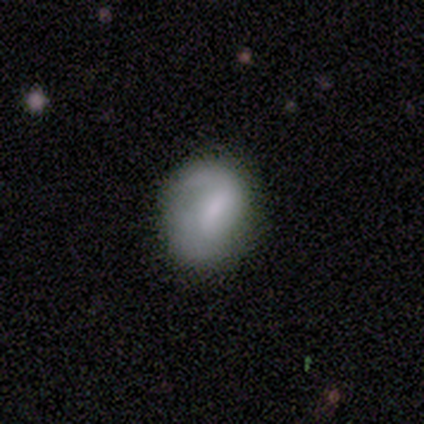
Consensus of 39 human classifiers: This is possibly a featured or disk galaxy (51%). It is clearly not viewed edge-on (95%). Bar: likely weak (63%). Spiral arm pattern: likely yes (79%). Spiral arm count: possibly 2 (47%). Spiral winding: likely loose (60%). Central bulge: marginally moderate (37%). Merging: likely none (68%).